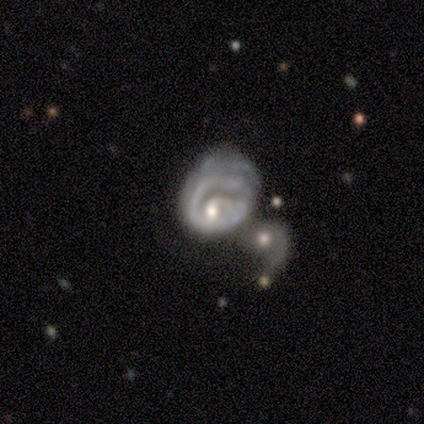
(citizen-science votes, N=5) Volunteers were most divided on "spiral arm count" (2-way tie): 1: 50%, can't tell: 50%, 2: 0%, 3: 0%, 4: 0%, more than 4: 0%; "bulge size" (2-way tie): moderate: 50%, small: 50%, dominant: 0%, large: 0%, none: 0%. Remaining: edge-on disk — no (100%); spiral arms — yes (100%); smooth or featured — featured or disk (80%); bar — no (75%); spiral winding — tight (75%); merging — major disturbance (40%).